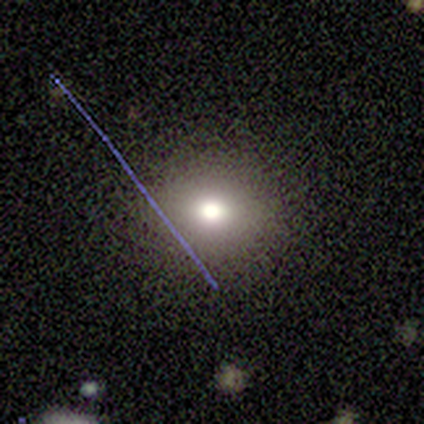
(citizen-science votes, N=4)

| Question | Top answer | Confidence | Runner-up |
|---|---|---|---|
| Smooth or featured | smooth | 75% | featured or disk (25%) |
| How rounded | round | 100% | — |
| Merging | none | 100% | — |